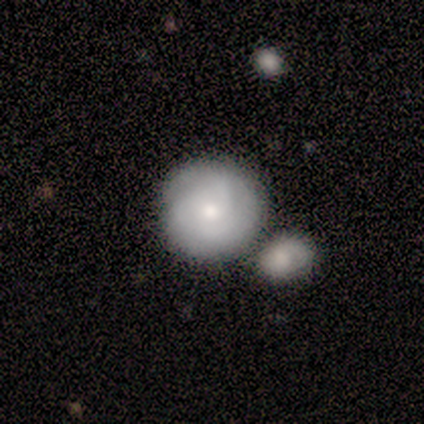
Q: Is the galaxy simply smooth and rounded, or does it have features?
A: smooth — 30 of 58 (52%).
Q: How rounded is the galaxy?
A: round — 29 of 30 (97%).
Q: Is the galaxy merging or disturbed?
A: none — 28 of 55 (51%).